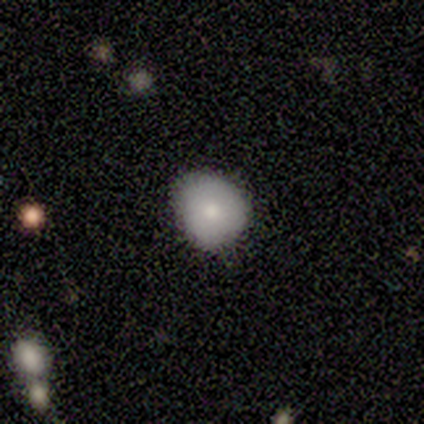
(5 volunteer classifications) Overall: smooth (100%). How rounded: round (80%). Merging: minor disturbance (60%; none 40%).